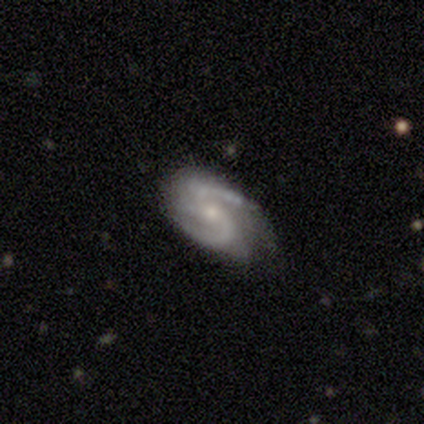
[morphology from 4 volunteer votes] Q: Smooth or featured?
A: featured or disk (100%)
Q: Edge-on disk?
A: no (75%); runner-up: yes (25%)
Q: Bar?
A: no (67%); runner-up: weak (33%)
Q: Spiral arms?
A: yes (100%)
Q: Spiral winding?
A: medium (100%)
Q: Spiral arm count?
A: 2 (100%)
Q: Bulge size?
A: moderate (67%); runner-up: small (33%)
Q: Merging?
A: none (75%); runner-up: minor disturbance (25%)